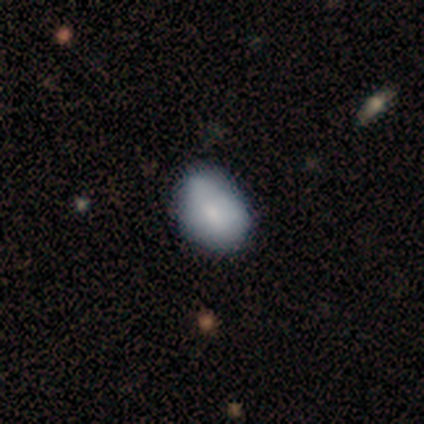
Morphology: type=smooth (60%); roundness=in between (100%); merging=none (60%).